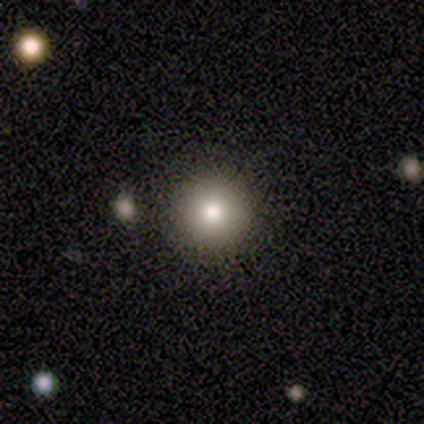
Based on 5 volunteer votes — Smooth or featured?
  - smooth: 80% *
  - star or artifact: 20%
  - featured or disk: 0%
How rounded?
  - round: 75% *
  - in between: 25%
  - cigar-shaped: 0%
Merging?
  - none: 100% *
  - minor disturbance: 0%
  - major disturbance: 0%
  - merger: 0%